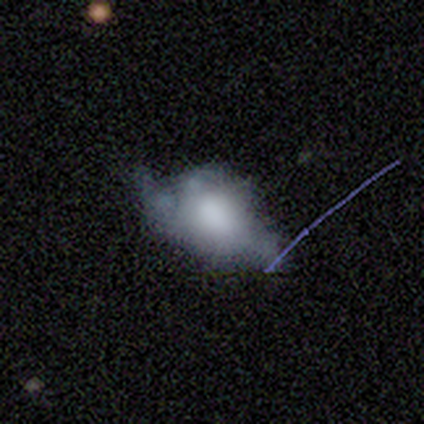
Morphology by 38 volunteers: smooth-or-featured: smooth: 50% | featured or disk: 42% | star or artifact: 8%
  how-rounded: in between: 84% | round: 16% | cigar-shaped: 0%
  merging: none: 37% | major disturbance: 29% | minor disturbance: 26% | merger: 9%